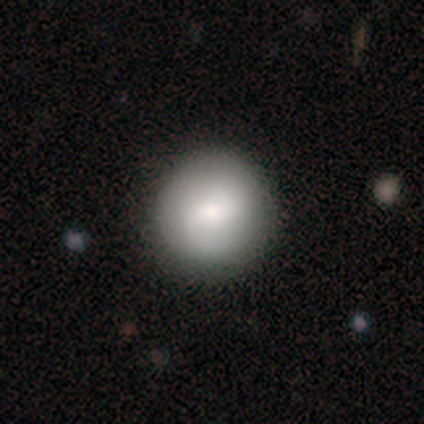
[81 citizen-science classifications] A smooth galaxy with no disk features (65%) that is round (98%).

Vote fractions:
- Smooth or featured? smooth: 65% / featured or disk: 31% / star or artifact: 4%
- How rounded? round: 98% / in between: 2% / cigar-shaped: 0%
- Merging? none: 47% / minor disturbance: 3% / major disturbance: 3% / merger: 1%